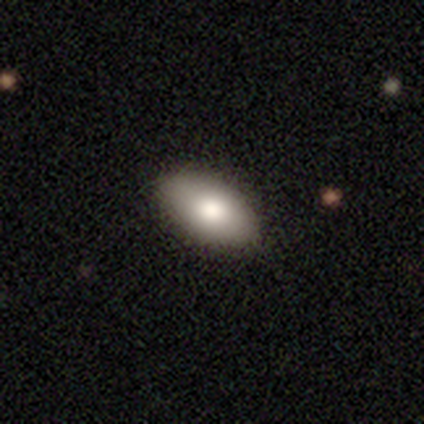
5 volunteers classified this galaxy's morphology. Overall: smooth (80%). How rounded: in between (75%). Merging: none (100%).